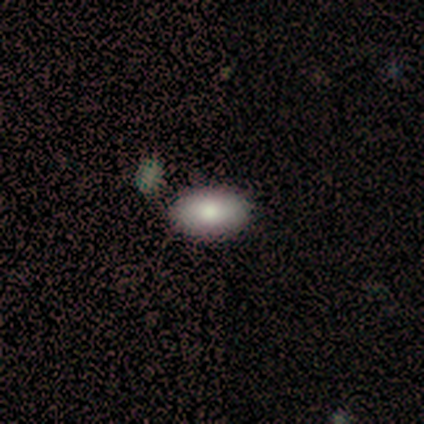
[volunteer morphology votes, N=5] Smooth or featured? smooth (80%)
How rounded? in between (100%)
Merging? none (100%)